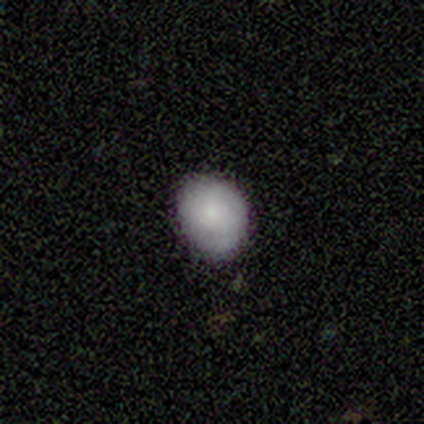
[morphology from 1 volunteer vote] A smooth galaxy with no disk features (100%) that is in between round and cigar-shaped (100%).

Vote fractions:
- Smooth or featured? smooth: 100% / featured or disk: 0% / star or artifact: 0%
- How rounded? in between: 100% / round: 0% / cigar-shaped: 0%
- Merging? minor disturbance: 100% / none: 0% / major disturbance: 0% / merger: 0%